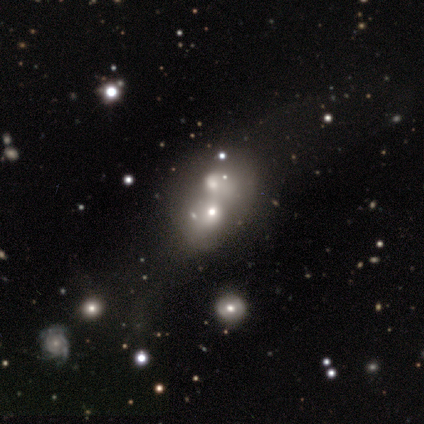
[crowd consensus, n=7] smooth-or-featured: featured or disk: 57% | star or artifact: 43% | smooth: 0%
  disk-edge-on: no: 100% | yes: 0%
    bar: no: 75% | weak: 25% | strong: 0%
    has-spiral-arms: yes: 50% (tied) | no: 50% (tied)
      spiral-winding: medium: 50% (tied) | loose: 50% (tied) | tight: 0%
      spiral-arm-count: 1: 50% (tied) | 4: 50% (tied) | 2: 0% | 3: 0% | more than 4: 0% | can't tell: 0%
    bulge-size: large: 50% | moderate: 25% | small: 25% | dominant: 0% | none: 0%
  merging: merger: 75% | minor disturbance: 25% | none: 0% | major disturbance: 0%